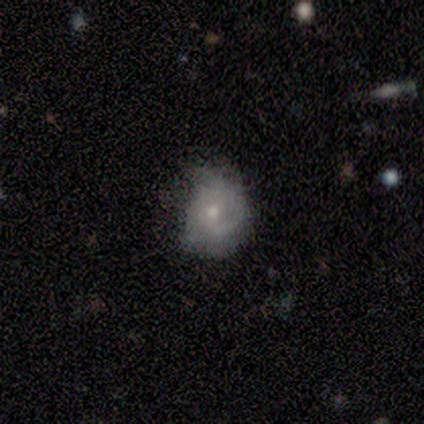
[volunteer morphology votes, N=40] This appears to be a featured or disk galaxy (52%) with no bar (85%), tight (47%) spiral arms (85%) and a moderate central bulge (60%). Merging: none (47%).